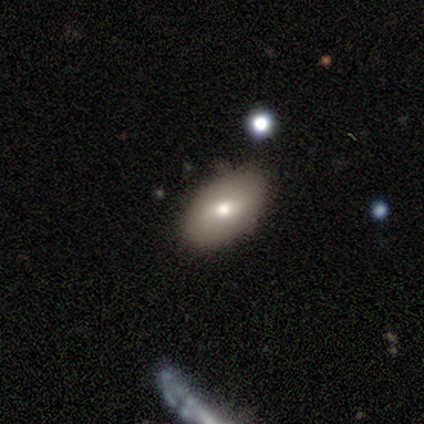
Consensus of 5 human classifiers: Smooth or featured: smooth — 60% (featured or disk — 40%)
How rounded: in between — 67% (round — 33%)
Merging: minor disturbance — 60% (none — 40%)